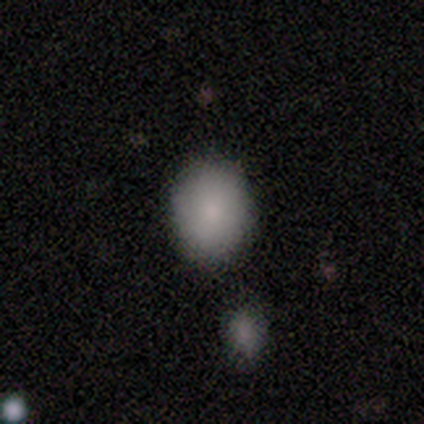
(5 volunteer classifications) This appears to be a smooth galaxy with no disk features (100%) that is in between round and cigar-shaped (60%). Merging: none (100%).